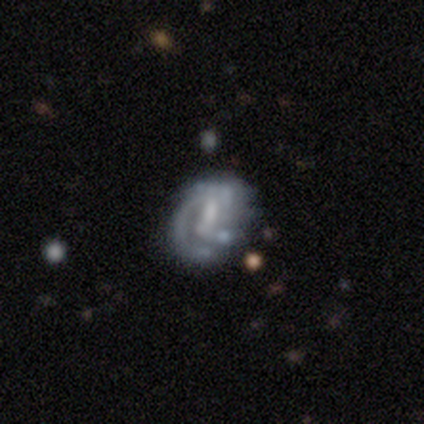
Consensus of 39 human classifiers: Smooth or featured?
  - featured or disk: 64% *
  - smooth: 31%
  - star or artifact: 5%
Edge-on disk?
  - no: 100% *
  - yes: 0%
Bar?
  - weak: 52% *
  - no: 32%
  - strong: 16%
Spiral arms?
  - yes: 56% *
  - no: 44%
Spiral winding?
  - medium: 57% *
  - tight: 36%
  - loose: 7%
Spiral arm count?
  - 1: 36% * (tied)
  - 2: 36% * (tied)
  - can't tell: 29%
  - 3: 0%
  - 4: 0%
  - more than 4: 0%
Bulge size?
  - none: 52% *
  - moderate: 28%
  - small: 12%
  - large: 8%
  - dominant: 0%
Merging?
  - none: 62% *
  - minor disturbance: 19%
  - major disturbance: 16%
  - merger: 3%